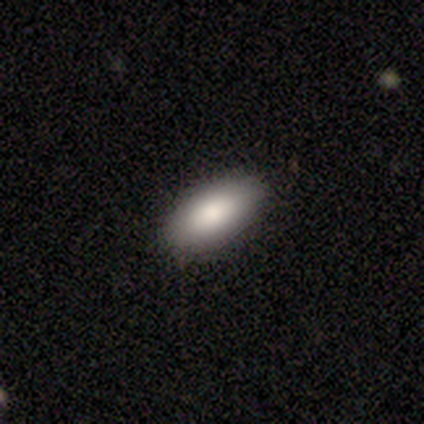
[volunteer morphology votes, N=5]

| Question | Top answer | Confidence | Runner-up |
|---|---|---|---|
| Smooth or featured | smooth | 60% | star or artifact (40%) |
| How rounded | in between | 100% | — |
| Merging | none | 67% | minor disturbance (33%) |